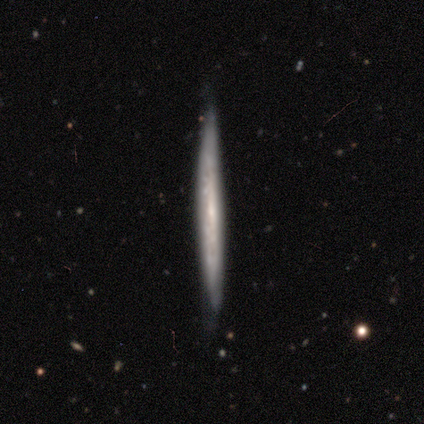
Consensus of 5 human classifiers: smooth-or-featured: featured or disk: 100% | smooth: 0% | star or artifact: 0%
  disk-edge-on: yes: 100% | no: 0%
    edge-on-bulge: none: 80% | rounded: 20% | boxy: 0%
  merging: none: 80% | minor disturbance: 20% | major disturbance: 0% | merger: 0%